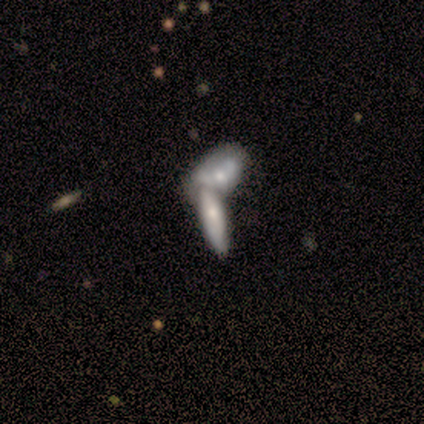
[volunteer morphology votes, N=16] A smooth galaxy with no disk features (94%) that is cigar-shaped (60%).

Vote fractions:
- Smooth or featured? smooth: 94% / featured or disk: 6% / star or artifact: 0%
- How rounded? cigar-shaped: 60% / in between: 40% / round: 0%
- Merging? merger: 62% / none: 31% / major disturbance: 6% / minor disturbance: 0%